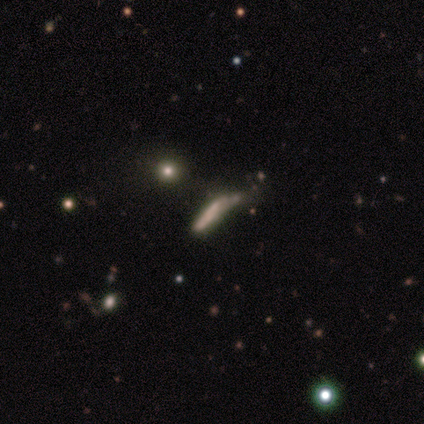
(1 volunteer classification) smooth_or_featured: smooth (p=1.00)
how_rounded: in between (p=1.00)
merging: minor disturbance (p=1.00)